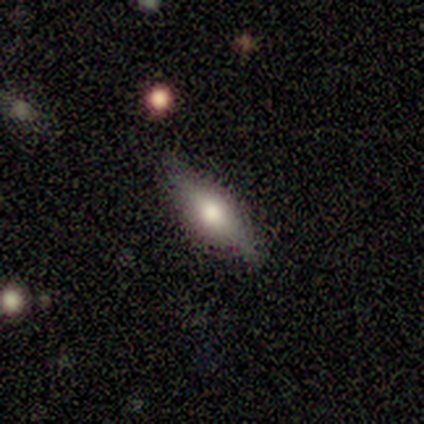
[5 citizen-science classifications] Q: Smooth or featured?
A: featured or disk (60%); runner-up: smooth (40%)
Q: Edge-on disk?
A: yes (100%)
Q: Edge-on bulge?
A: rounded (67%); runner-up: boxy (33%)
Q: Merging?
A: none (80%); runner-up: minor disturbance (20%)